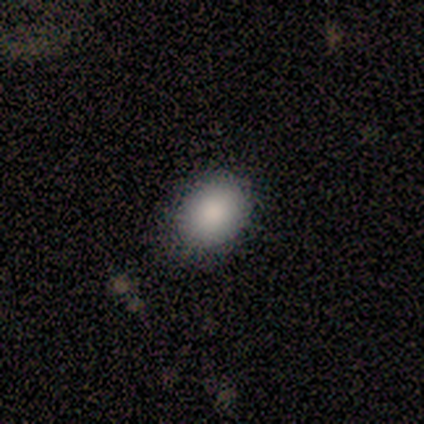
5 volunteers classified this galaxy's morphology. Smooth or featured? smooth (100%)
How rounded? in between (80%)
Merging? none (60%)